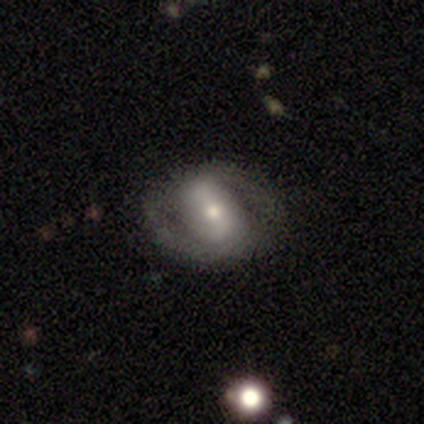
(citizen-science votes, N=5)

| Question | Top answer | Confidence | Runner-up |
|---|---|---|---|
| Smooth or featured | featured or disk | 80% | smooth (20%) |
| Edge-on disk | no | 100% | — |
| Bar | strong | 50% | tied: weak (50%) |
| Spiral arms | yes | 75% | no (25%) |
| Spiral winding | tight | 67% | loose (33%) |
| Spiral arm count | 2 | 67% | 1 (33%) |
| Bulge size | moderate | 50% | large (25%) |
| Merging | none | 60% | minor disturbance (20%) |